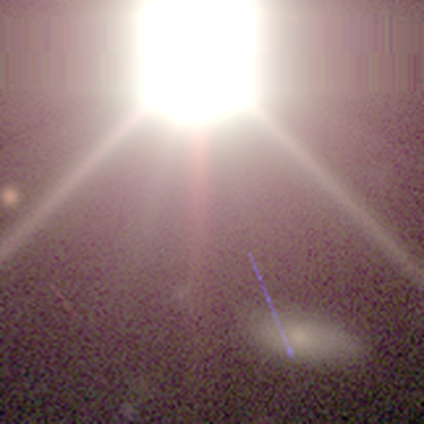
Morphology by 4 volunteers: This is likely a star or artifact rather than a galaxy (75%).